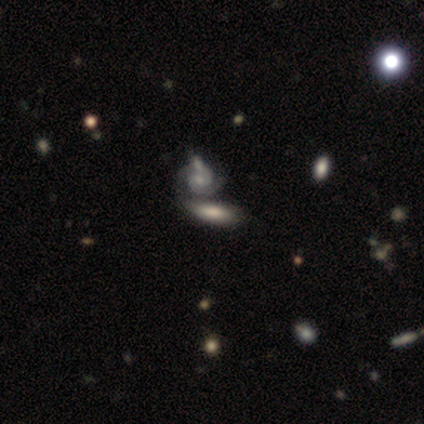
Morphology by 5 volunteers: A smooth galaxy with no disk features (60%) that is in between round and cigar-shaped (100%). Merging: none (40%, tied with merger).